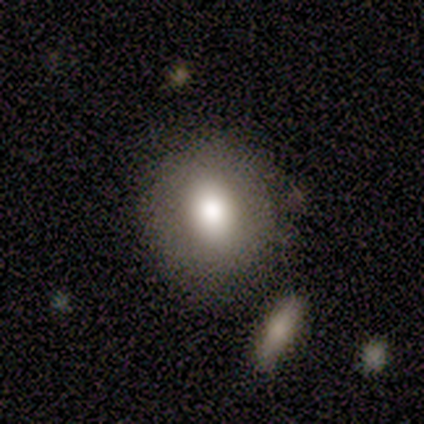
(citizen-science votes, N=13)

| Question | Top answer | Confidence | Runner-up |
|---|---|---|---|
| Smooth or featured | smooth | 69% | featured or disk (15%) |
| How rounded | round | 67% | in between (33%) |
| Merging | none | 82% | minor disturbance (9%) |